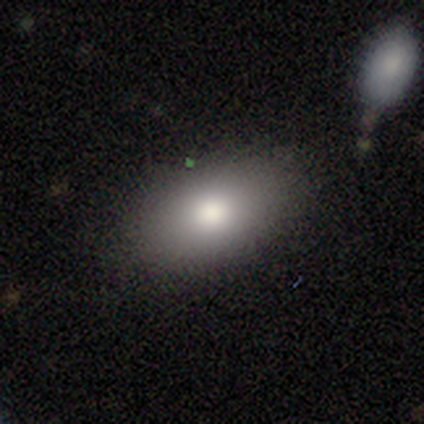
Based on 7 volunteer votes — Q: Smooth or featured?
A: smooth (71%); runner-up: featured or disk (29%)
Q: How rounded?
A: in between (100%)
Q: Merging?
A: none (100%)